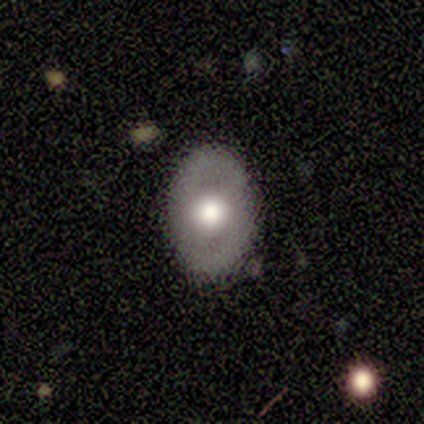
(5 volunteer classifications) Morphology: type=featured or disk (60%); edge-on=no (100%); bar=no (100%); spiral arms=no (100%); bulge=dominant (33%, tied with large and moderate); merging=none (100%).